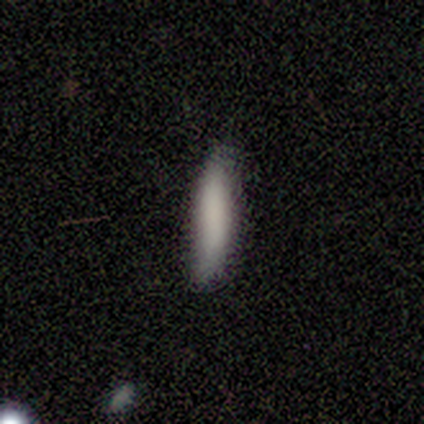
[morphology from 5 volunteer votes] smooth_or_featured: smooth (p=0.80) [alt: featured or disk p=0.20]
how_rounded: cigar-shaped (p=1.00)
merging: minor disturbance (p=0.80) [alt: none p=0.20]